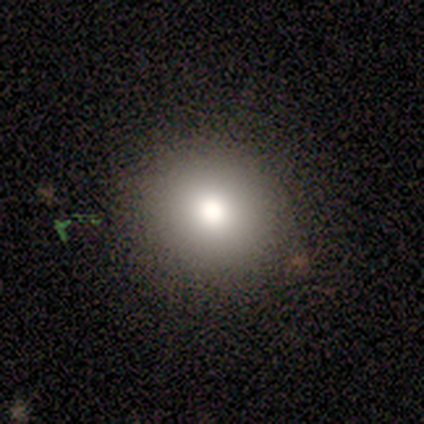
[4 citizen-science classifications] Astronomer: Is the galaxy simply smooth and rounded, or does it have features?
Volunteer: smooth — 50%.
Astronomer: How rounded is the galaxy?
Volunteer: round — 100%.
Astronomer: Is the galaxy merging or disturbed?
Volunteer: none — 100%.